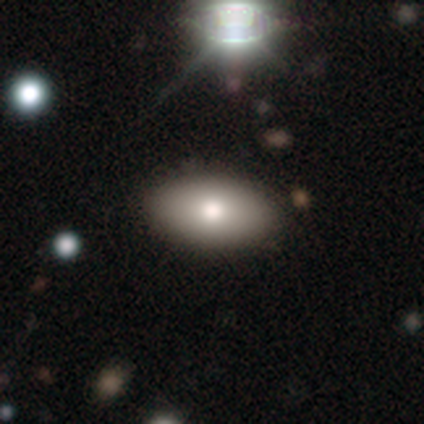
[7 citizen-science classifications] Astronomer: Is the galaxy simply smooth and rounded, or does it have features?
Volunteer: smooth — 57%.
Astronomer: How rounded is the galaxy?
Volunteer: in between — 100%.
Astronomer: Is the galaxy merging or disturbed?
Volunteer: none — 83%.